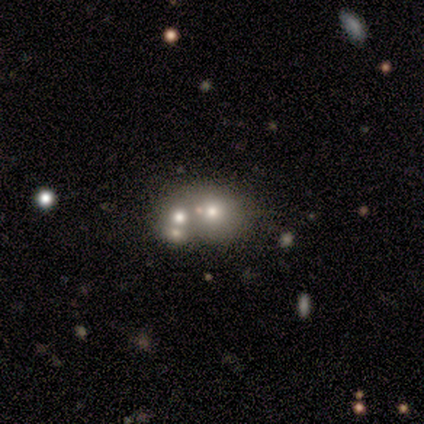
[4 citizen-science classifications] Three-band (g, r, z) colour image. It shows a smooth galaxy with no disk features (50%, tied with featured or disk) that is round (100%). Merging: none (75%).